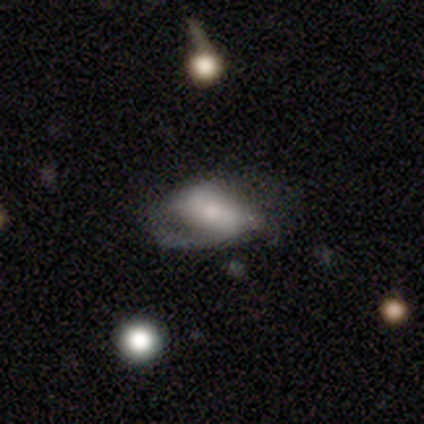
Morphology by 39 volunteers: A featured or disk galaxy (74%) with no bar (46%), 2 (60%) loose (50%) spiral arms (71%) and a small central bulge (43%). Merging: none (42%).